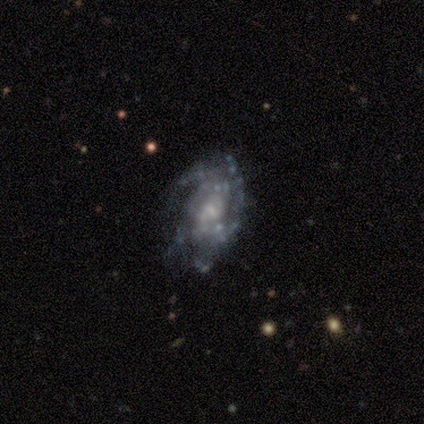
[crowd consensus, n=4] Morphology: type=featured or disk (75%); edge-on=no (100%); bar=strong (33%, tied with weak and no); spiral arms=yes (67%); winding=tight (50%, tied with medium); arm count=2 (50%, tied with 3); bulge=small (67%); merging=none (50%, tied with minor disturbance).